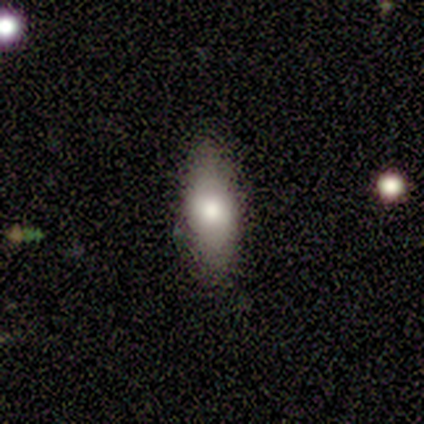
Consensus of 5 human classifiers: Morphology: type=smooth (80%); roundness=in between (50%, tied with cigar-shaped); merging=none (100%).